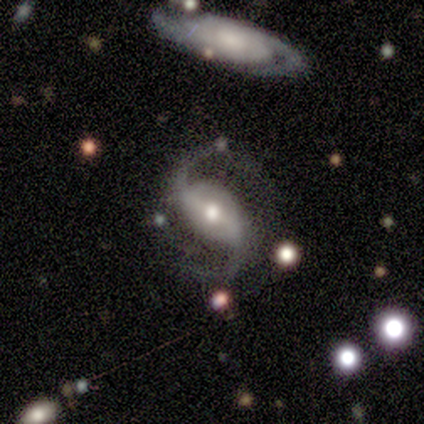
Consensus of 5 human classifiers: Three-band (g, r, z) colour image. It shows a featured or disk galaxy (100%) with a weak bar (40%, tied with no), 2 (100%) loose (60%) spiral arms (100%) and a moderate central bulge (80%). Merging: none (60%).